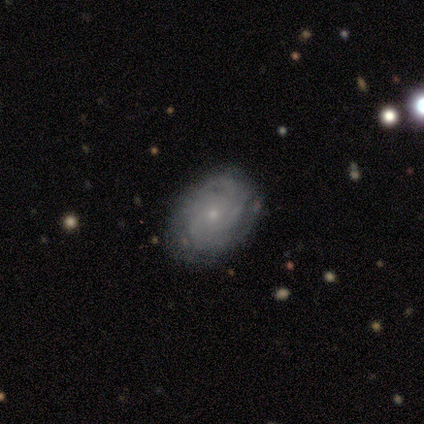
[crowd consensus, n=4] Smooth or featured? 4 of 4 (100%) said featured or disk. Edge-on disk? 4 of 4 (100%) said no. Bar? 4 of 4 (100%) said no. Spiral arms? 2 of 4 (50%, tied with no) said yes. Spiral winding? 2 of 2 (100%) said tight. Spiral arm count? 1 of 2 (50%, tied with can't tell) said 4. Bulge size? 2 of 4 (50%) said small. Merging? 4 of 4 (100%) said none.